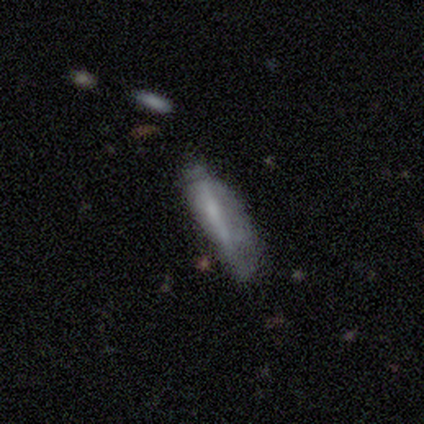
A smooth galaxy with no disk features (60%) that is cigar-shaped (100%). Merging: none (40%, tied with major disturbance).